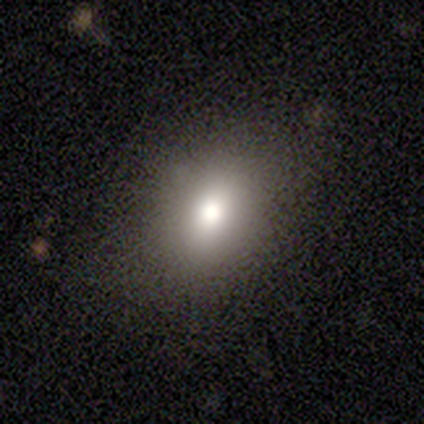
A smooth galaxy with no disk features (40%, tied with star or artifact) that is round (50%, tied with in between). Merging: none (100%).